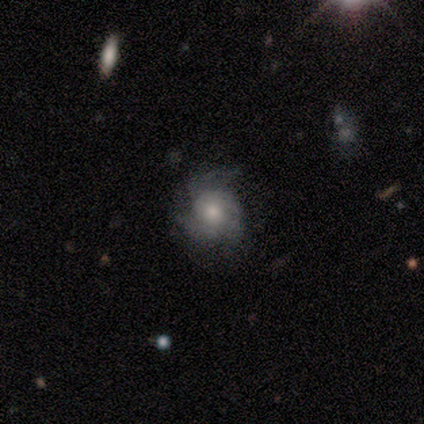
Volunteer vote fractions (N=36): A featured or disk galaxy (67%) with no bar (83%), 3 (55%) tight (50%) spiral arms (92%) and a moderate central bulge (62%).

Vote fractions:
- Smooth or featured? featured or disk: 67% / smooth: 22% / star or artifact: 11%
- Edge-on disk? no: 100% / yes: 0%
- Bar? no: 83% / weak: 17% / strong: 0%
- Spiral arms? yes: 92% / no: 8%
- Spiral winding? tight: 50% / medium: 41% / loose: 9%
- Spiral arm count? 3: 55% / can't tell: 27% / 2: 14% / more than 4: 5% / 1: 0% / 4: 0%
- Bulge size? moderate: 62% / small: 21% / large: 17% / dominant: 0% / none: 0%
- Merging? none: 56% / minor disturbance: 28% / major disturbance: 16% / merger: 0%